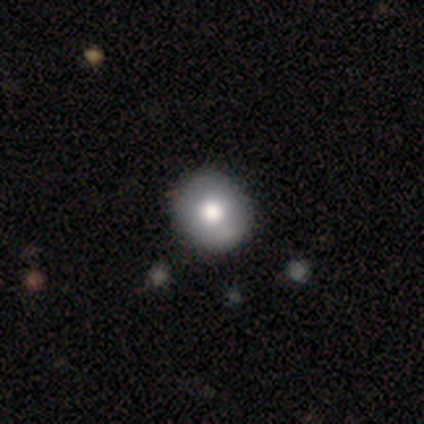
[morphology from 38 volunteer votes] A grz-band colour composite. It shows a smooth galaxy with no disk features (66%) that is round (80%). Merging: none (77%).